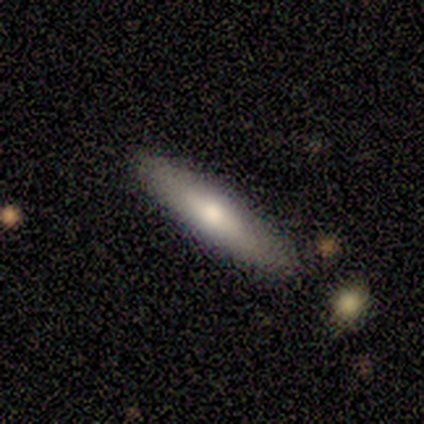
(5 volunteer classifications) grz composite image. It shows a featured or disk galaxy (60%) viewed edge-on (100%) with no central bulge (67%). Merging: none (80%).